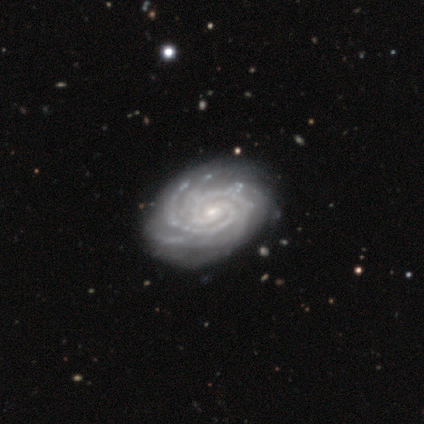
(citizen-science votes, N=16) smooth_or_featured: featured or disk (p=0.88) [alt: smooth p=0.06]
disk_edge_on: no (p=1.00)
bar: no (p=0.43) [alt: weak p=0.36]
has_spiral_arms: yes (p=1.00)
spiral_winding: tight (p=0.79) [alt: medium p=0.21]
spiral_arm_count: 2 (p=0.43) [alt: 4 p=0.29]
bulge_size: small (p=0.79) [alt: moderate p=0.21]
merging: none (p=0.73) [alt: minor disturbance p=0.20]